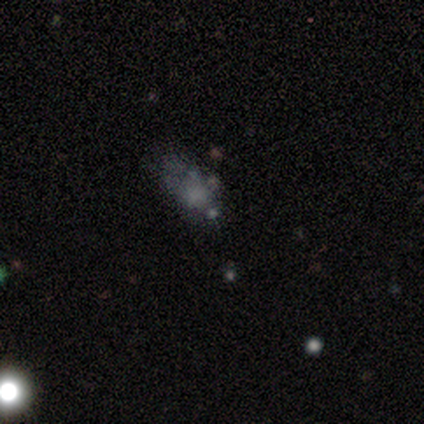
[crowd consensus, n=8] Smooth or featured? featured or disk (50%)
Edge-on disk? no (100%)
Bar? no (100%)
Spiral arms? no (100%)
Bulge size? none (50%)
Merging? none (50%)